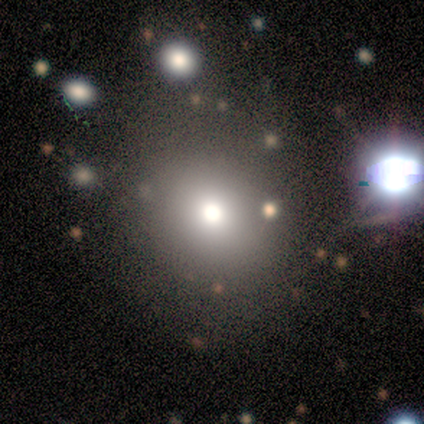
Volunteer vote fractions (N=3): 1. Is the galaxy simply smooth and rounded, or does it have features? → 100% smooth, 0% featured or disk, 0% star or artifact.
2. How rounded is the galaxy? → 67% round, 33% in between, 0% cigar-shaped.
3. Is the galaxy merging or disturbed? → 100% none, 0% minor disturbance, 0% major disturbance, 0% merger.